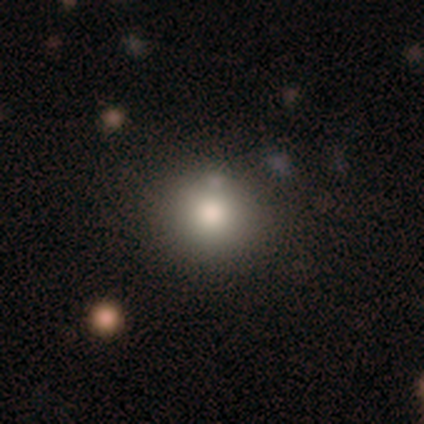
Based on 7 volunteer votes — Volunteers were most divided on "how rounded": in between: 60%, round: 40%, cigar-shaped: 0%. More confident: smooth or featured — smooth (71%); merging — none (60%).